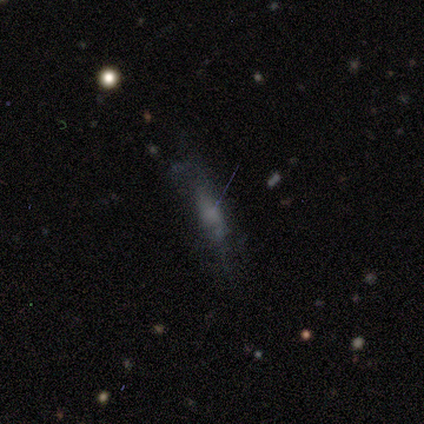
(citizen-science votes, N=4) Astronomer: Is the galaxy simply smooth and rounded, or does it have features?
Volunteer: smooth — 75%.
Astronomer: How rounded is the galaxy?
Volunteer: cigar-shaped — 100%.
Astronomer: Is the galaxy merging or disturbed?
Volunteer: minor disturbance — 50%, tied with major disturbance at 50%.